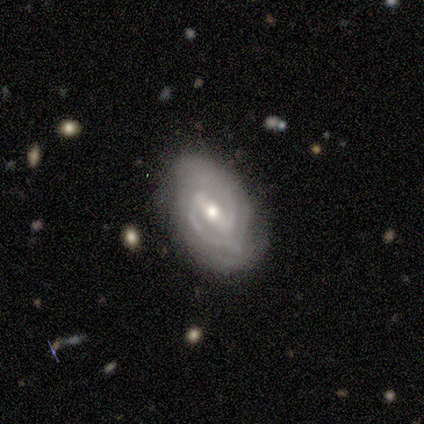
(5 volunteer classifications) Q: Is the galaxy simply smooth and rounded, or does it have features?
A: featured or disk — 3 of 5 (60%).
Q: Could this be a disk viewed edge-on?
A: no — 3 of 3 (100%).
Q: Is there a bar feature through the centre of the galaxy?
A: strong — 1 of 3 (33%, tied with weak and no).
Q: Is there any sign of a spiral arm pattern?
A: yes — 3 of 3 (100%).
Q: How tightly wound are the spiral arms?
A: tight — 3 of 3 (100%).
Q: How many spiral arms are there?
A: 2 — 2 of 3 (67%).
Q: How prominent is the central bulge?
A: small — 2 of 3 (67%).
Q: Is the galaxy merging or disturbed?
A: none — 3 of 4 (75%).